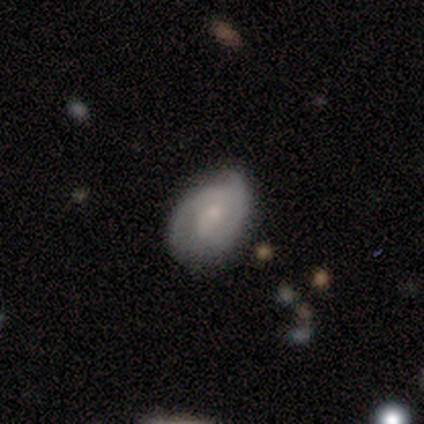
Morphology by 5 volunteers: Volunteers were most divided on "spiral winding" (3-way tie): tight: 33%, medium: 33%, loose: 33%. More confident: edge-on disk — no (100%); spiral arms — yes (100%); merging — none (80%); bar — no (67%); spiral arm count — 2 (67%); bulge size — small (67%); smooth or featured — featured or disk (60%).